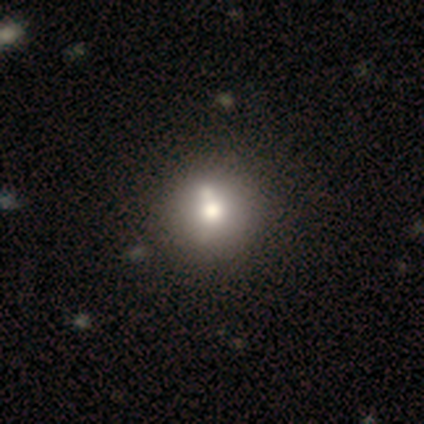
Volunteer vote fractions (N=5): A smooth galaxy with no disk features (80%) that is round (100%).

Vote fractions:
- Smooth or featured? smooth: 80% / featured or disk: 20% / star or artifact: 0%
- How rounded? round: 100% / in between: 0% / cigar-shaped: 0%
- Merging? none: 40% (tied) / minor disturbance: 40% (tied) / merger: 20% / major disturbance: 0%